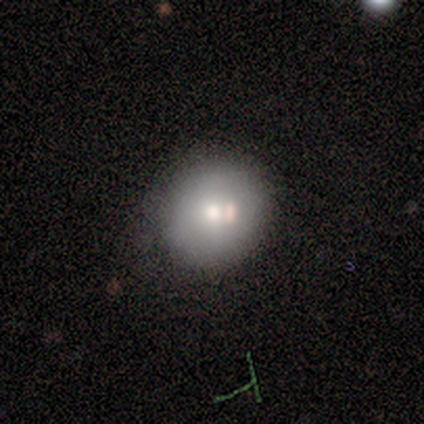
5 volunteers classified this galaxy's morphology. Overall: smooth (80%). How rounded: round (100%). Merging: none (80%).